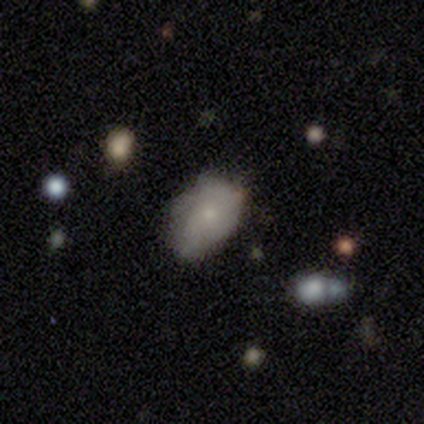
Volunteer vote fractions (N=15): Smooth or featured? 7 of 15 (47%) said featured or disk. Edge-on disk? 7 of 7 (100%) said no. Bar? 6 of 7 (86%) said no. Spiral arms? 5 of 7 (71%) said yes. Spiral winding? 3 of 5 (60%) said medium. Spiral arm count? 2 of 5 (40%) said can't tell. Bulge size? 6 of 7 (86%) said small. Merging? 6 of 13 (46%, tied with minor disturbance) said none.